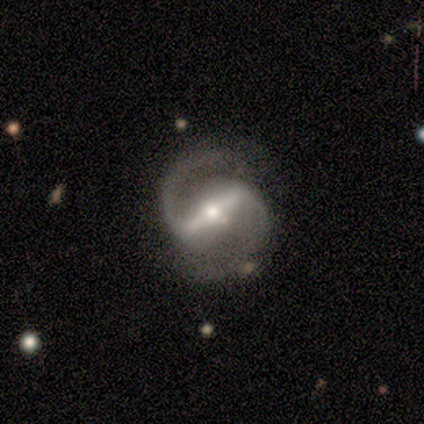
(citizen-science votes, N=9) Volunteers were most divided on "spiral winding": loose: 50%, medium: 38%, tight: 12%. More confident: smooth or featured — featured or disk (100%); spiral arms — yes (100%); spiral arm count — 2 (100%); edge-on disk — no (89%); merging — none (67%); bar — strong (62%); bulge size — small (50%).